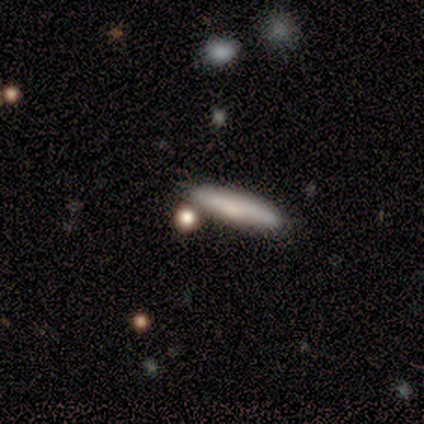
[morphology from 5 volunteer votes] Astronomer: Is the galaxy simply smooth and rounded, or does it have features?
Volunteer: smooth — 40%, tied with star or artifact at 40%.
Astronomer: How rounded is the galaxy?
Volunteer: cigar-shaped — 100%.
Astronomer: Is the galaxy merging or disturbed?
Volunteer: none — 100%.